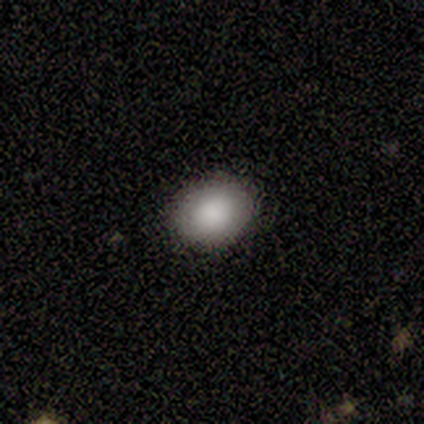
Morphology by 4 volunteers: Volunteers were most divided on "how rounded": round: 67%, in between: 33%, cigar-shaped: 0%. More confident: merging — none (100%); smooth or featured — smooth (75%).